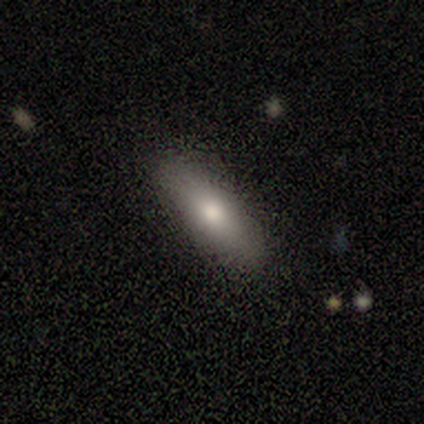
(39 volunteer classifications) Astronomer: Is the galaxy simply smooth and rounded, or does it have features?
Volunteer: smooth — 72%.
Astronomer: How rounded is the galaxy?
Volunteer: in between — 75%.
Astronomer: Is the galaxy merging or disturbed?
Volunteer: none — 89%.